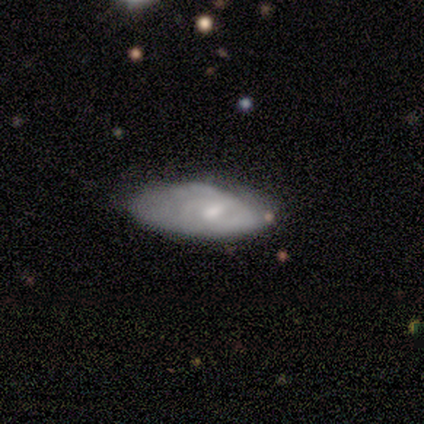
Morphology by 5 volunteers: This is clearly a featured or disk galaxy (80%). It is likely not viewed edge-on (75%). Bar: likely no (67%). Spiral arm pattern: clearly yes (100%). Spiral arm count: marginally 3 (33%, tied with 4 and can't tell). Spiral winding: likely loose (67%). Central bulge: likely moderate (67%). Merging: likely none (60%).